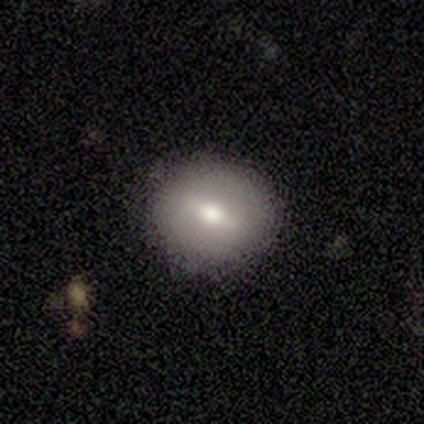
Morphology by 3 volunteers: Smooth or featured? smooth (67%)
How rounded? round (100%)
Merging? none (67%)